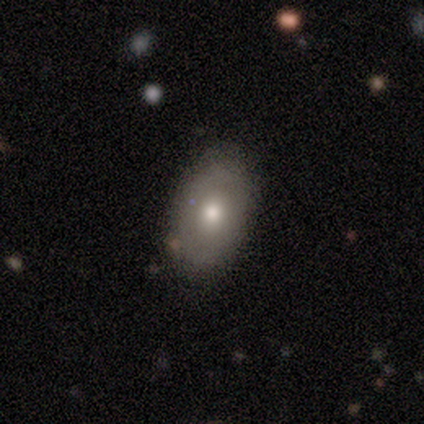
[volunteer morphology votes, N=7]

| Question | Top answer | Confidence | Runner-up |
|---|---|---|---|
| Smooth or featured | smooth | 43% | featured or disk (29%) |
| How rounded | in between | 100% | — |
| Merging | none | 60% | minor disturbance (20%) |